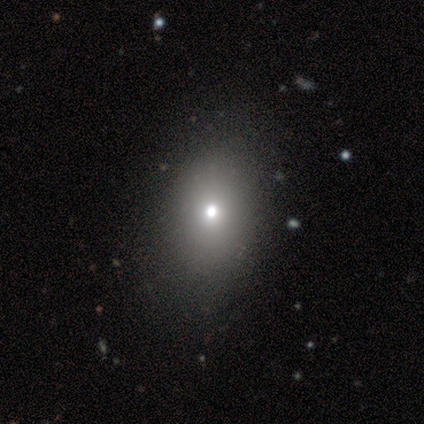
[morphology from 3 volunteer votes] Smooth or featured?
  - smooth: 100% *
  - featured or disk: 0%
  - star or artifact: 0%
How rounded?
  - in between: 67% *
  - round: 33%
  - cigar-shaped: 0%
Merging?
  - none: 100% *
  - minor disturbance: 0%
  - major disturbance: 0%
  - merger: 0%